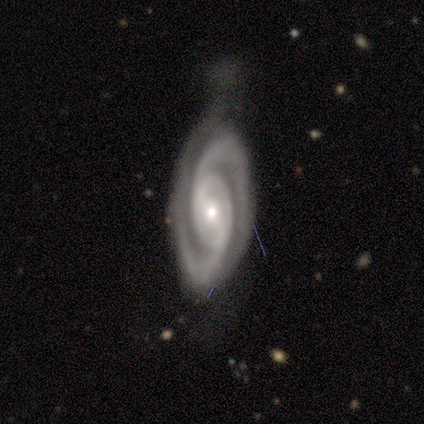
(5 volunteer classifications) A featured or disk galaxy (100%) with a strong bar (40%, tied with weak), 2 (100%) tight (80%) spiral arms (100%) and a moderate central bulge (60%).

Vote fractions:
- Smooth or featured? featured or disk: 100% / smooth: 0% / star or artifact: 0%
- Edge-on disk? no: 100% / yes: 0%
- Bar? strong: 40% (tied) / weak: 40% (tied) / no: 20%
- Spiral arms? yes: 100% / no: 0%
- Spiral winding? tight: 80% / medium: 20% / loose: 0%
- Spiral arm count? 2: 100% / 1: 0% / 3: 0% / 4: 0% / more than 4: 0% / can't tell: 0%
- Bulge size? moderate: 60% / small: 40% / dominant: 0% / large: 0% / none: 0%
- Merging? none: 60% / minor disturbance: 40% / major disturbance: 0% / merger: 0%